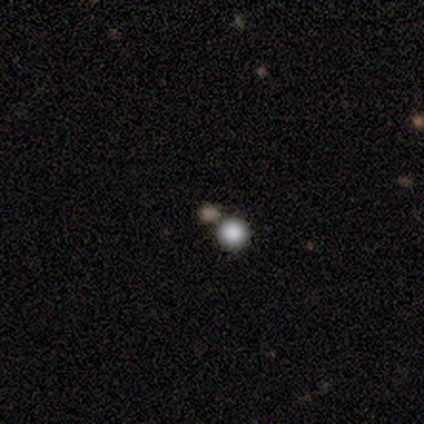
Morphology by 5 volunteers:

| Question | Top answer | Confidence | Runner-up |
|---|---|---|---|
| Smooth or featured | smooth | 60% | star or artifact (40%) |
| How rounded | round | 100% | — |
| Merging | none | 100% | — |